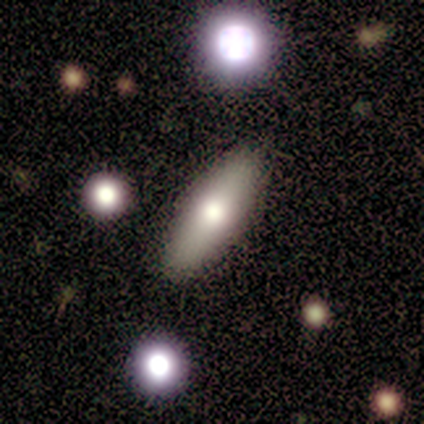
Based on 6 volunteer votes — Smooth or featured?
  - smooth: 67% *
  - featured or disk: 33%
  - star or artifact: 0%
How rounded?
  - in between: 75% *
  - cigar-shaped: 25%
  - round: 0%
Merging?
  - none: 83% *
  - minor disturbance: 17%
  - major disturbance: 0%
  - merger: 0%